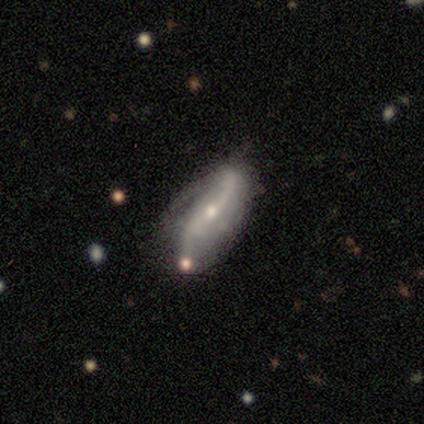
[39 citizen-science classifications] A featured or disk galaxy (87%) with no bar (38%), 2 (88%) loose (71%) spiral arms (83%) and a small central bulge (55%). Merging: none (56%).